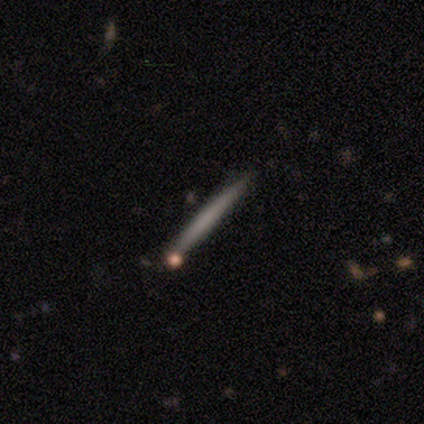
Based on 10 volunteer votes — smooth 60%, featured or disk 30%, star or artifact 10%. Down the decision tree: how rounded — cigar-shaped (100%); merging — none (78%).